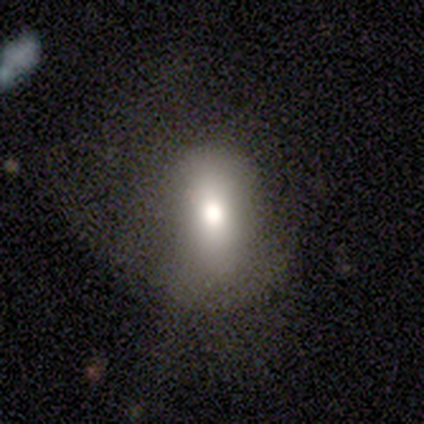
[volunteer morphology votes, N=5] A smooth galaxy with no disk features (100%) that is in between round and cigar-shaped (80%). Merging: none (80%).